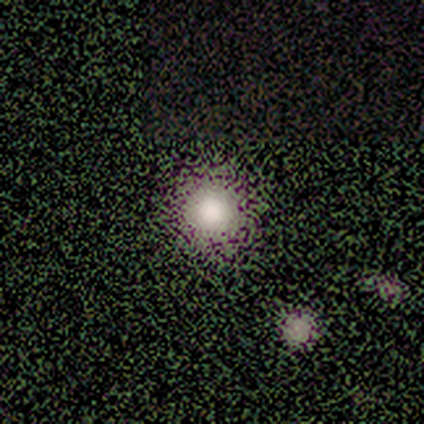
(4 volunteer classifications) smooth 100%, featured or disk 0%, star or artifact 0%. Down the decision tree: how rounded — round (100%); merging — none (100%).